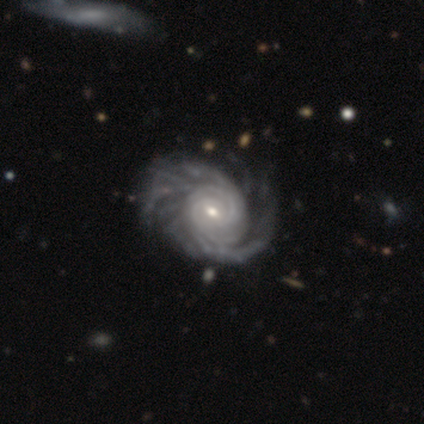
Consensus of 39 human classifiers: A featured or disk galaxy (95%) with no bar (49%), more than 4 (32%, tied with can't tell) tight (73%) spiral arms (100%) and a small central bulge (57%).

Vote fractions:
- Smooth or featured? featured or disk: 95% / smooth: 3% / star or artifact: 3%
- Edge-on disk? no: 100% / yes: 0%
- Bar? no: 49% / weak: 43% / strong: 8%
- Spiral arms? yes: 100% / no: 0%
- Spiral winding? tight: 73% / medium: 24% / loose: 3%
- Spiral arm count? more than 4: 32% (tied) / can't tell: 32% (tied) / 2: 19% / 3: 11% / 4: 5% / 1: 0%
- Bulge size? small: 57% / moderate: 38% / large: 5% / dominant: 0% / none: 0%
- Merging? none: 50% / minor disturbance: 13% / major disturbance: 11% / merger: 3%